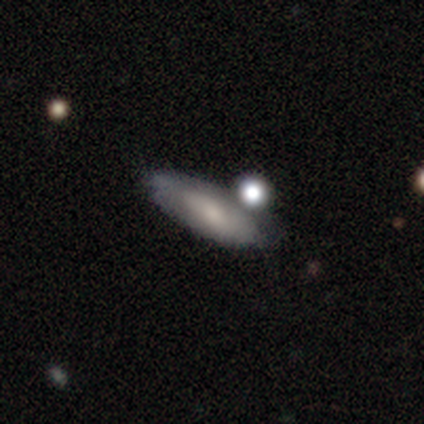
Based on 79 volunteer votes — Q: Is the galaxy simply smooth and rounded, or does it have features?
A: smooth — 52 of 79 (66%).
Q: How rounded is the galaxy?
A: in between — 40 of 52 (77%).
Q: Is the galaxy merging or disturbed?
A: none — 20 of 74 (27%, tied with merger).